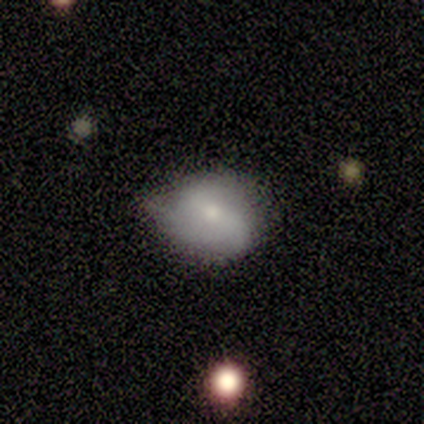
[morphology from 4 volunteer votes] type=smooth (75%); roundness=round (67%); merging=minor disturbance (75%).